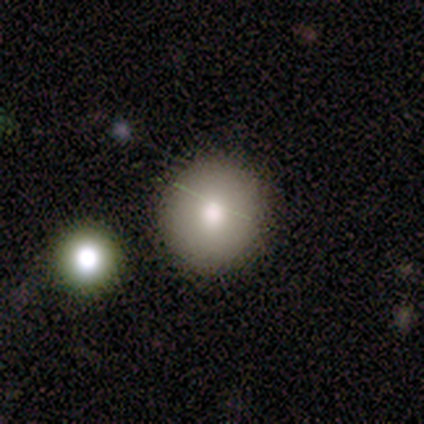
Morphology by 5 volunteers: This is clearly a smooth galaxy (80%). How rounded: clearly round (100%). Merging: clearly none (100%).